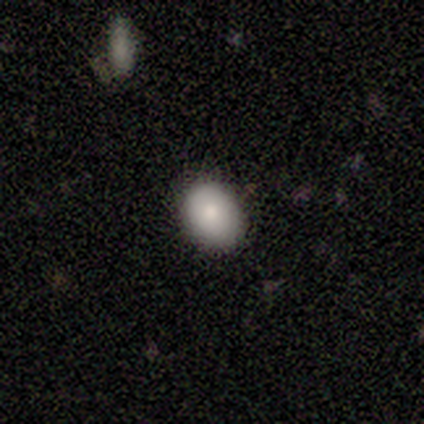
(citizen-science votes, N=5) Morphology: type=smooth (100%); roundness=in between (80%); merging=none (100%).